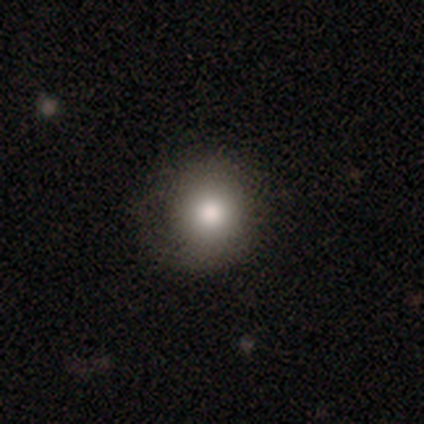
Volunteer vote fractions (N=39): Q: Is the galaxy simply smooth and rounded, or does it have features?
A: smooth — 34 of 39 (87%).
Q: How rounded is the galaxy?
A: round — 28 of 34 (82%).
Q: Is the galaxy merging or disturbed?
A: none — 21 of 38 (55%).